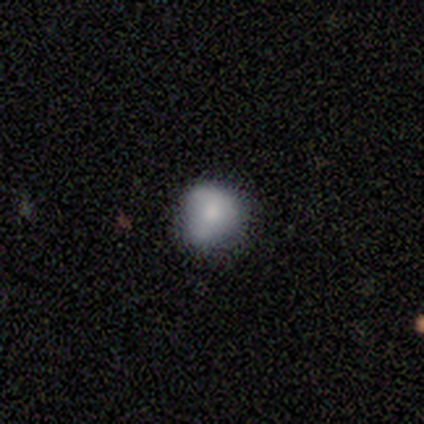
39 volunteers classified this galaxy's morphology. A smooth galaxy with no disk features (72%) that is round (75%).

Vote fractions:
- Smooth or featured? smooth: 72% / featured or disk: 18% / star or artifact: 10%
- How rounded? round: 75% / in between: 25% / cigar-shaped: 0%
- Merging? none: 71% / minor disturbance: 26% / merger: 3% / major disturbance: 0%